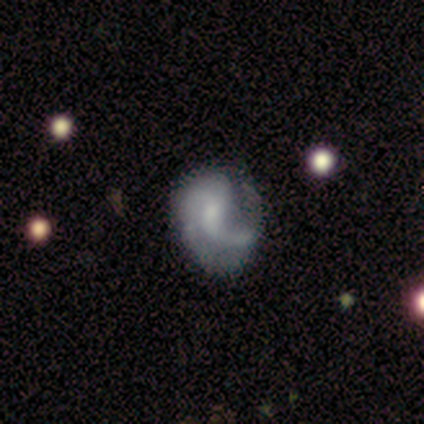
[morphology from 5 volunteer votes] A featured or disk galaxy (80%) with a weak bar (75%), 1 (50%, tied with 2) medium (50%, tied with loose) spiral arms (100%) and a small central bulge (100%).

Vote fractions:
- Smooth or featured? featured or disk: 80% / smooth: 20% / star or artifact: 0%
- Edge-on disk? no: 100% / yes: 0%
- Bar? weak: 75% / no: 25% / strong: 0%
- Spiral arms? yes: 100% / no: 0%
- Spiral winding? medium: 50% (tied) / loose: 50% (tied) / tight: 0%
- Spiral arm count? 1: 50% (tied) / 2: 50% (tied) / 3: 0% / 4: 0% / more than 4: 0% / can't tell: 0%
- Bulge size? small: 100% / dominant: 0% / large: 0% / moderate: 0% / none: 0%
- Merging? major disturbance: 60% / none: 20% / minor disturbance: 20% / merger: 0%